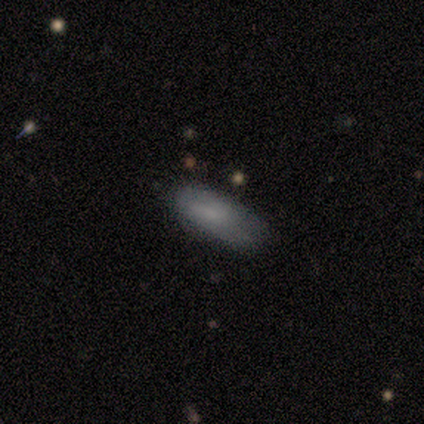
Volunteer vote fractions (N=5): Smooth or featured?
  - smooth: 100% *
  - featured or disk: 0%
  - star or artifact: 0%
How rounded?
  - in between: 80% *
  - cigar-shaped: 20%
  - round: 0%
Merging?
  - none: 60% *
  - minor disturbance: 20%
  - major disturbance: 20%
  - merger: 0%